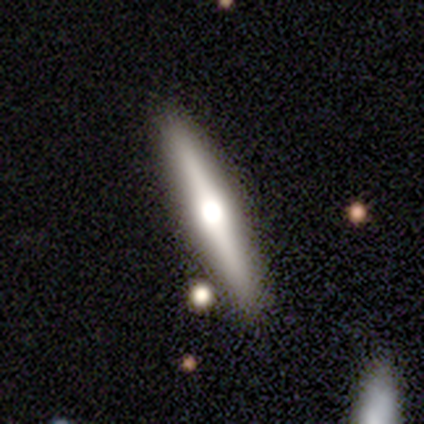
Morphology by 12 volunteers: smooth-or-featured: featured or disk: 83% | smooth: 17% | star or artifact: 0%
  disk-edge-on: yes: 90% | no: 10%
    edge-on-bulge: rounded: 100% | boxy: 0% | none: 0%
  merging: none: 83% | minor disturbance: 17% | major disturbance: 0% | merger: 0%